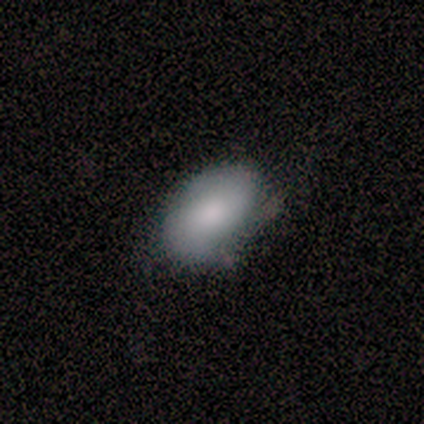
Smooth or featured?
  - smooth: 83% *
  - featured or disk: 17%
  - star or artifact: 0%
How rounded?
  - in between: 100% *
  - round: 0%
  - cigar-shaped: 0%
Merging?
  - none: 67% *
  - minor disturbance: 33%
  - major disturbance: 0%
  - merger: 0%